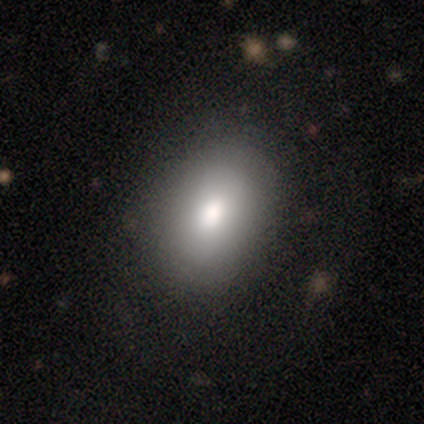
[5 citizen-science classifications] smooth-or-featured: smooth: 80% | featured or disk: 20% | star or artifact: 0%
  how-rounded: round: 50% (tied) | in between: 50% (tied) | cigar-shaped: 0%
  merging: none: 60% | minor disturbance: 20% | major disturbance: 20% | merger: 0%